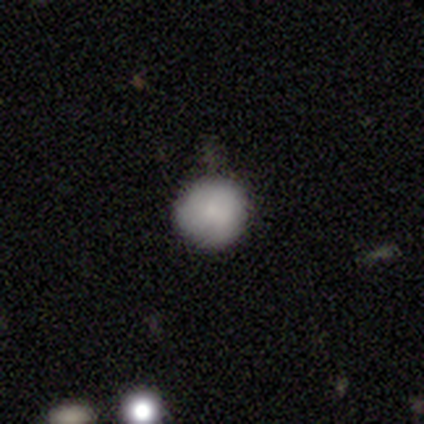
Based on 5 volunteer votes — A smooth galaxy with no disk features (100%) that is round (100%).

Vote fractions:
- Smooth or featured? smooth: 100% / featured or disk: 0% / star or artifact: 0%
- How rounded? round: 100% / in between: 0% / cigar-shaped: 0%
- Merging? none: 100% / minor disturbance: 0% / major disturbance: 0% / merger: 0%